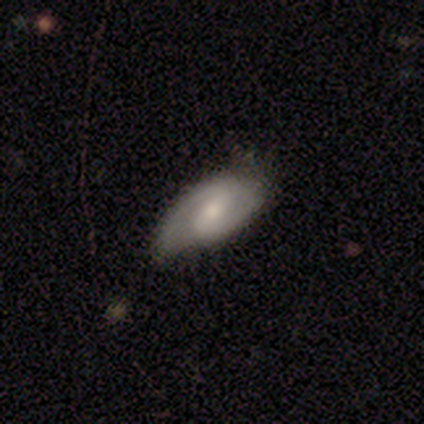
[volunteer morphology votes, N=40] Smooth or featured? featured or disk (70%)
Edge-on disk? no (89%)
Bar? weak (44%)
Spiral arms? yes (100%)
Spiral winding? medium (52%)
Spiral arm count? 2 (96%)
Bulge size? moderate (52%)
Merging? none (63%)